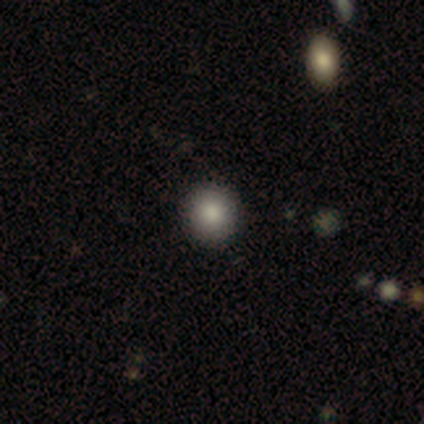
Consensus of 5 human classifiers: Morphology: type=smooth (100%); roundness=round (80%); merging=none (80%).